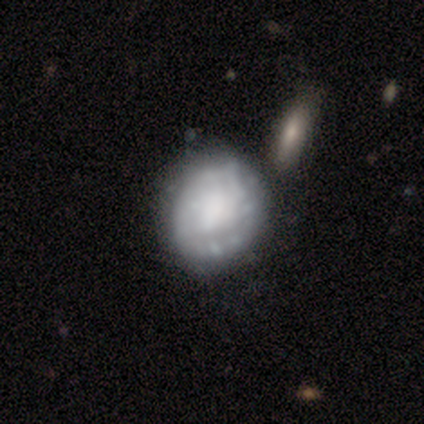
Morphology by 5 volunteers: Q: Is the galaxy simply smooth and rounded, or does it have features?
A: featured or disk — 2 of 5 (40%, tied with star or artifact).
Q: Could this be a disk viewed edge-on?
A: no — 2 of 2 (100%).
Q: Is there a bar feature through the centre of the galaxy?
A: no — 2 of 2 (100%).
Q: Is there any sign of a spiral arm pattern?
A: yes — 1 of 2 (50%, tied with no).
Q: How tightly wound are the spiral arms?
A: tight — 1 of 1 (100%).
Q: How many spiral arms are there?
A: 2 — 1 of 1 (100%).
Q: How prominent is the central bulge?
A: dominant — 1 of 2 (50%, tied with none).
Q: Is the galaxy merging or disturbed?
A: none — 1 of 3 (33%, tied with major disturbance and merger).